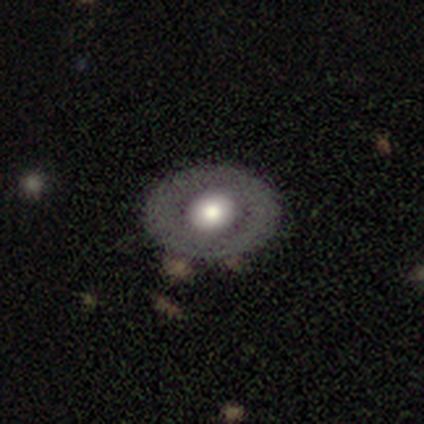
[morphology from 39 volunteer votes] Smooth or featured? featured or disk (64%)
Edge-on disk? no (92%)
Bar? no (91%)
Spiral arms? no (100%)
Bulge size? large (57%)
Merging? none (64%)